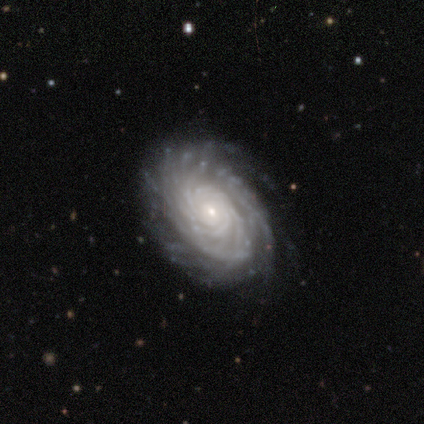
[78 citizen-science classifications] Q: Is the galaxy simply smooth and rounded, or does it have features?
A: featured or disk — 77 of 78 (99%).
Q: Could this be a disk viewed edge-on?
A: no — 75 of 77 (97%).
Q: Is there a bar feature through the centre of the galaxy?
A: no — 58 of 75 (77%).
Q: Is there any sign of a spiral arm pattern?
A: yes — 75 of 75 (100%).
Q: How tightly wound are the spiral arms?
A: tight — 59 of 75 (79%).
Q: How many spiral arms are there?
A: more than 4 — 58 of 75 (77%).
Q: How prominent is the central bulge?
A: small — 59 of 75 (79%).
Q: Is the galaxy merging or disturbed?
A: none — 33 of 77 (43%).